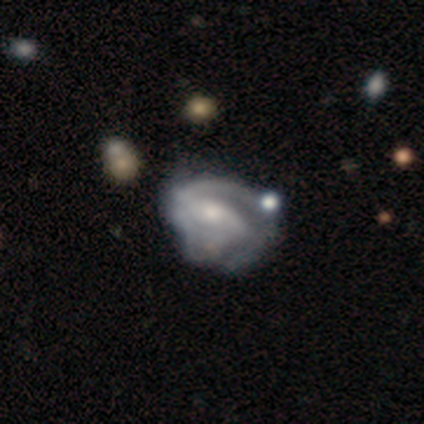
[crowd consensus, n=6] Q: Smooth or featured?
A: featured or disk (67%); runner-up: star or artifact (33%)
Q: Edge-on disk?
A: no (100%)
Q: Bar?
A: strong (75%); runner-up: weak (25%)
Q: Spiral arms?
A: yes (75%); runner-up: no (25%)
Q: Spiral winding?
A: tight (33%); tied with: medium (33%); loose (33%)
Q: Spiral arm count?
A: 2 (67%); runner-up: 1 (33%)
Q: Bulge size?
A: moderate (50%); tied with: small (50%)
Q: Merging?
A: minor disturbance (75%); runner-up: none (25%)